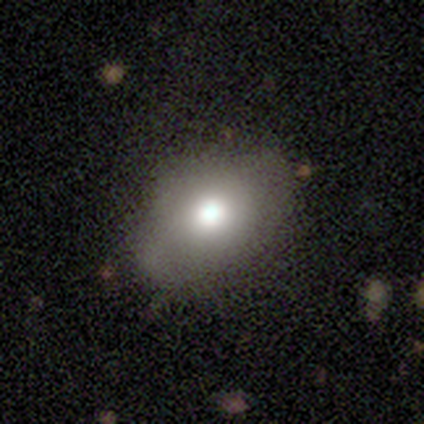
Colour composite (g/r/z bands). It shows a featured or disk galaxy (60%) with no bar (100%), no spiral arms (100%) and a large central bulge (67%). Merging: none (40%, tied with minor disturbance).